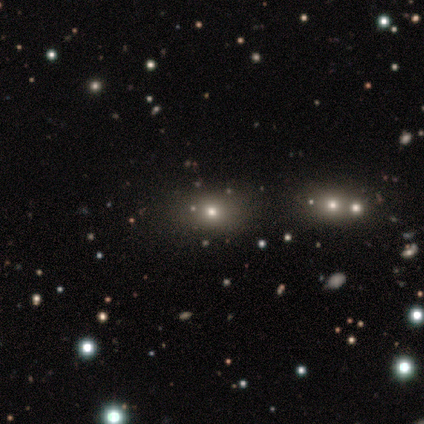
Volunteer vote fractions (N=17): A smooth galaxy with no disk features (53%) that is in between round and cigar-shaped (56%). Merging: none (77%).